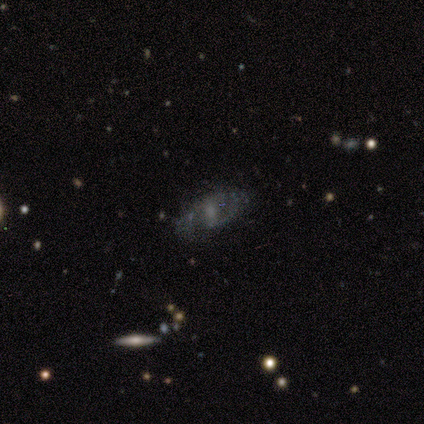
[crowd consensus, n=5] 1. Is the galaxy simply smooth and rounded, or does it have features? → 80% featured or disk, 20% smooth, 0% star or artifact.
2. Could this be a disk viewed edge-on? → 100% no, 0% yes.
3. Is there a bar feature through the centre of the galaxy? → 75% weak, 25% no, 0% strong.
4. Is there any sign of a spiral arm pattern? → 100% yes, 0% no.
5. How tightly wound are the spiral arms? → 50% tight, 25% medium, 25% loose.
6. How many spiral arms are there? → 75% 2, 25% can't tell, 0% 1, 0% 3, 0% 4, 0% more than 4.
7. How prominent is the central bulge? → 50% moderate (tied), 50% small (tied), 0% dominant, 0% large, 0% none.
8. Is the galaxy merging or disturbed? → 80% none, 20% minor disturbance, 0% major disturbance, 0% merger.